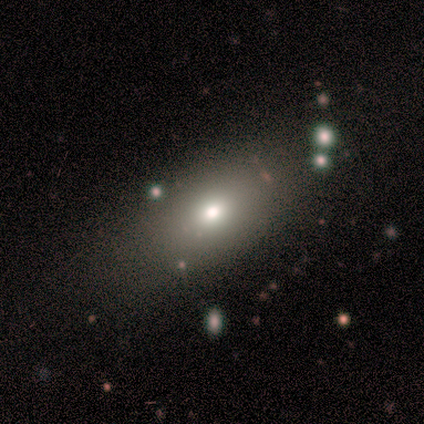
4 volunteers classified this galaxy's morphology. A smooth galaxy with no disk features (50%, tied with star or artifact) that is in between round and cigar-shaped (100%).

Vote fractions:
- Smooth or featured? smooth: 50% (tied) / star or artifact: 50% (tied) / featured or disk: 0%
- How rounded? in between: 100% / round: 0% / cigar-shaped: 0%
- Merging? none: 100% / minor disturbance: 0% / major disturbance: 0% / merger: 0%